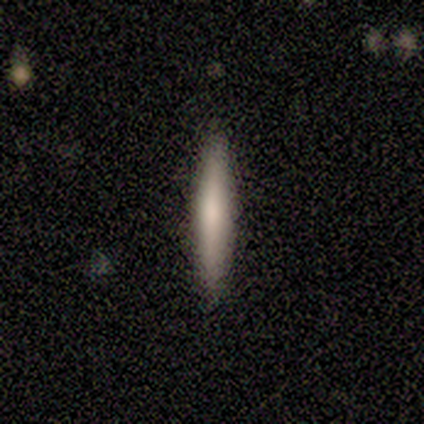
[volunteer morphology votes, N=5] Smooth or featured?
  - featured or disk: 60% *
  - smooth: 40%
  - star or artifact: 0%
Edge-on disk?
  - yes: 100% *
  - no: 0%
Edge-on bulge?
  - none: 67% *
  - rounded: 33%
  - boxy: 0%
Merging?
  - none: 100% *
  - minor disturbance: 0%
  - major disturbance: 0%
  - merger: 0%